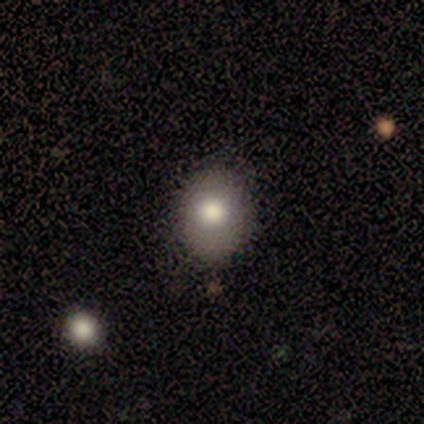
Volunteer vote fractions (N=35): smooth-or-featured: smooth: 60% | star or artifact: 23% | featured or disk: 17%
  how-rounded: in between: 67% | round: 33% | cigar-shaped: 0%
  merging: none: 74% | minor disturbance: 19% | major disturbance: 7% | merger: 0%